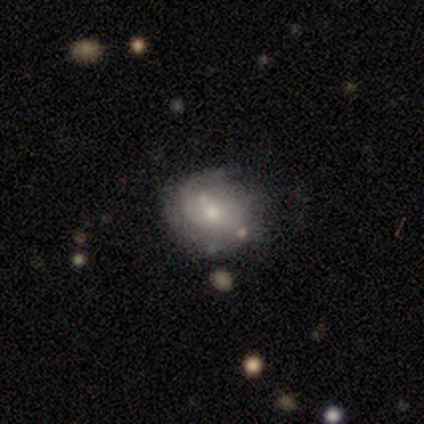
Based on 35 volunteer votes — Volunteers were most divided on "spiral arm count" (2-way tie): 1: 36%, can't tell: 36%, 2: 29%, 3: 0%, 4: 0%, more than 4: 0%. Remaining: edge-on disk — no (100%); bar — no (89%); spiral arms — yes (74%); bulge size — moderate (58%); merging — none (56%); smooth or featured — featured or disk (54%); spiral winding — medium (43%).